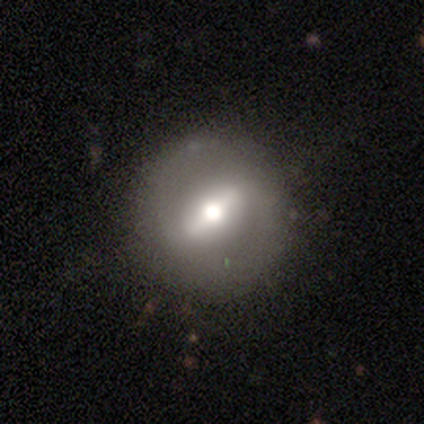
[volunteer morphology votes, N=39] This is likely a featured or disk galaxy (62%). It is clearly not viewed edge-on (88%). Bar: likely strong (76%). Spiral arm pattern: likely no (71%). Central bulge: possibly moderate (48%). Merging: clearly none (81%).